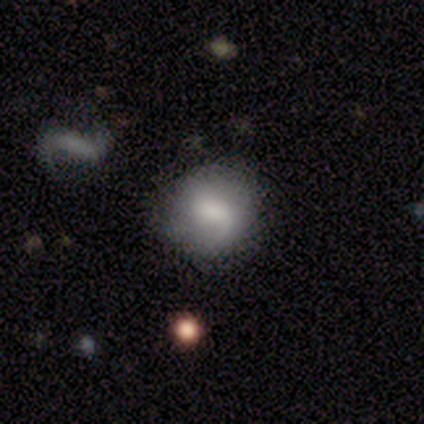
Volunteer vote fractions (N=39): Q: Smooth or featured?
A: smooth (56%); runner-up: featured or disk (44%)
Q: How rounded?
A: round (95%); runner-up: in between (5%)
Q: Merging?
A: none (69%); runner-up: minor disturbance (21%)